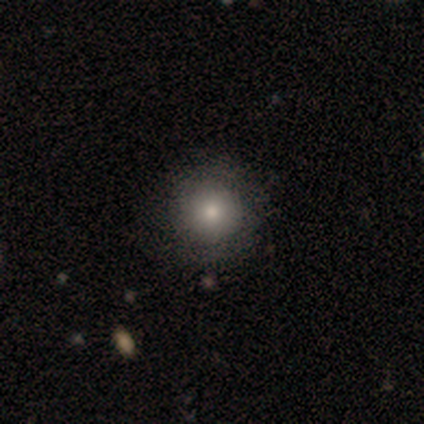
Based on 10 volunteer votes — smooth 70%, star or artifact 20%, featured or disk 10%. Down the decision tree: how rounded — round (100%); merging — none (88%).